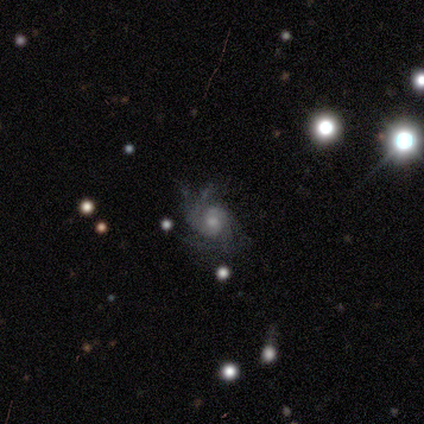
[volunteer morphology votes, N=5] This appears to be a featured or disk galaxy (60%) with no bar (100%), 2 (67%) medium (100%) spiral arms (100%) and a small central bulge (67%). Merging: none (33%, tied with minor disturbance and major disturbance).